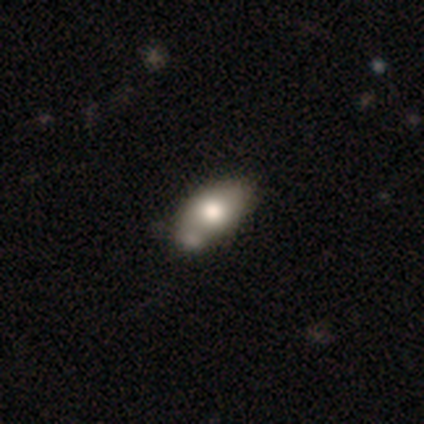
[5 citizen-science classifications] Overall: smooth (80%). How rounded: in between (100%). Merging: none (40%, tied with merger).